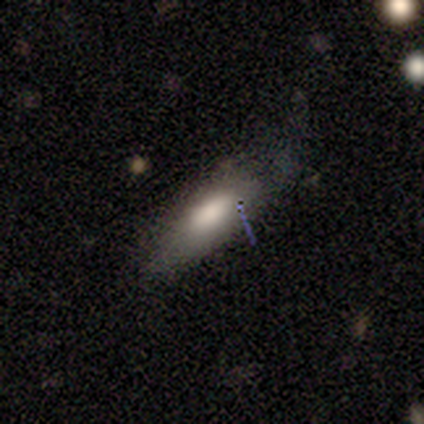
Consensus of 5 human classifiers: This is clearly a smooth galaxy (80%). How rounded: clearly in between (100%). Merging: likely none (60%).